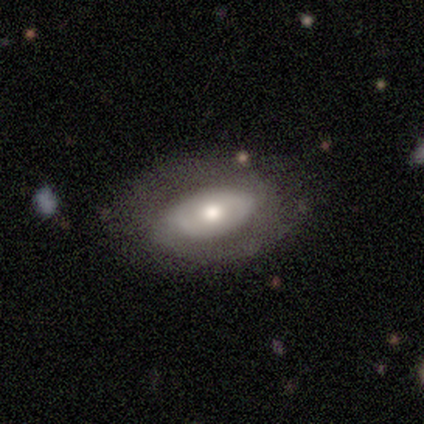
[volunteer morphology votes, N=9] Smooth or featured? smooth (56%)
How rounded? in between (80%)
Merging? none (44%, tied with major disturbance)